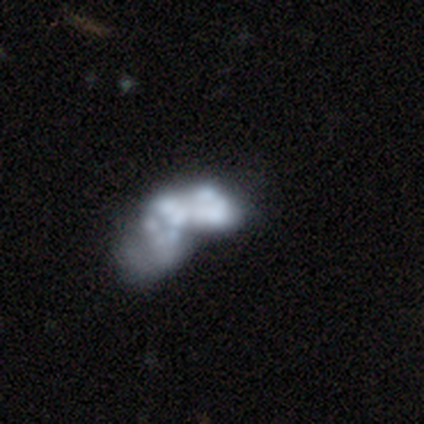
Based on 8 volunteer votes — A featured or disk galaxy (100%) with no bar (100%), no spiral arms (100%) and no central bulge (88%). Merging: minor disturbance (38%, tied with major disturbance).